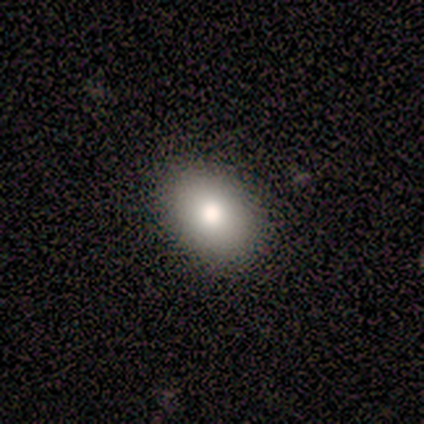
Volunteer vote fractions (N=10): smooth-or-featured: smooth: 80% | featured or disk: 10% | star or artifact: 10%
  how-rounded: in between: 62% | round: 38% | cigar-shaped: 0%
  merging: none: 100% | minor disturbance: 0% | major disturbance: 0% | merger: 0%